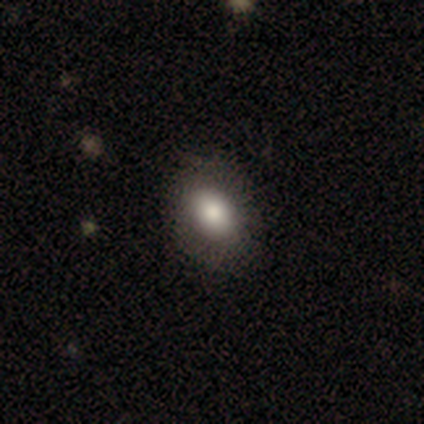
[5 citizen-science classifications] This is likely a smooth galaxy (60%). How rounded: clearly in between (100%). Merging: clearly none (80%).